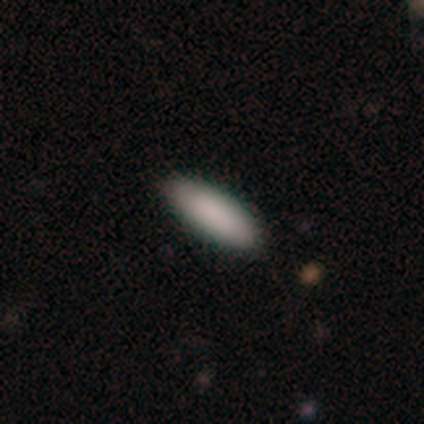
smooth-or-featured: smooth: 60% | star or artifact: 40% | featured or disk: 0%
  how-rounded: in between: 100% | round: 0% | cigar-shaped: 0%
  merging: none: 100% | minor disturbance: 0% | major disturbance: 0% | merger: 0%